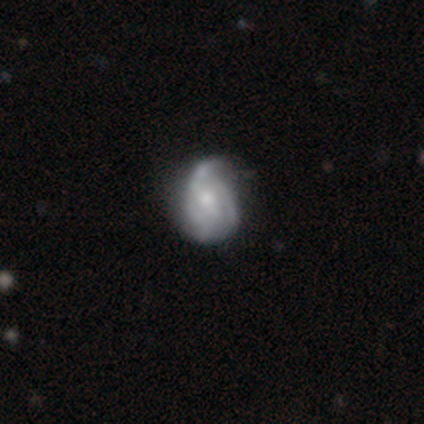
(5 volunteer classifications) Volunteers were most divided on "spiral arm count" (2-way tie): 2: 50%, 3: 50%, 1: 0%, 4: 0%, more than 4: 0%, can't tell: 0%; "merging" (2-way tie): none: 40%, minor disturbance: 40%, major disturbance: 20%, merger: 0%. More confident: edge-on disk — no (100%); spiral winding — loose (100%); bar — no (67%); spiral arms — yes (67%); bulge size — moderate (67%); smooth or featured — featured or disk (60%).